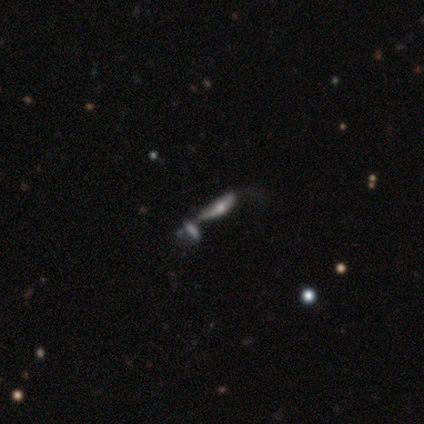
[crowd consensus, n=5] Smooth or featured? 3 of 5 (60%) said smooth. How rounded? 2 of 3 (67%) said in between. Merging? 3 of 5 (60%) said major disturbance.